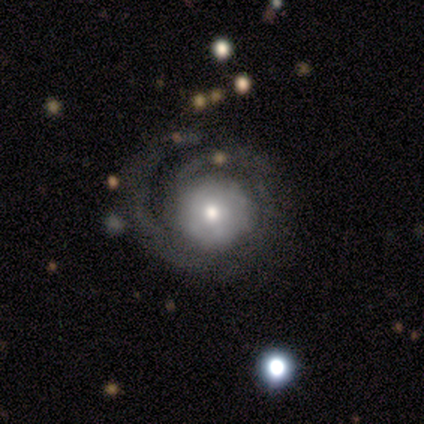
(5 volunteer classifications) smooth-or-featured: featured or disk: 100% | smooth: 0% | star or artifact: 0%
  disk-edge-on: no: 100% | yes: 0%
    bar: no: 100% | strong: 0% | weak: 0%
    has-spiral-arms: yes: 100% | no: 0%
      spiral-winding: tight: 60% | medium: 20% | loose: 20%
      spiral-arm-count: can't tell: 60% | 1: 20% | 2: 20% | 3: 0% | 4: 0% | more than 4: 0%
    bulge-size: moderate: 60% | small: 40% | dominant: 0% | large: 0% | none: 0%
  merging: none: 60% | major disturbance: 40% | minor disturbance: 0% | merger: 0%